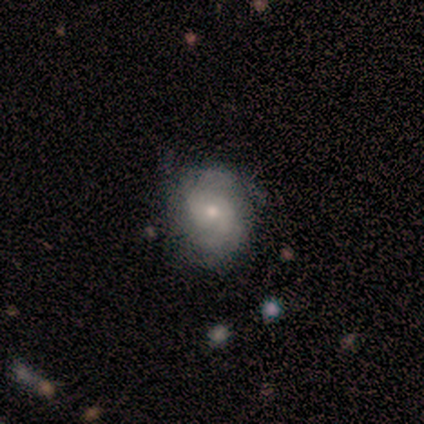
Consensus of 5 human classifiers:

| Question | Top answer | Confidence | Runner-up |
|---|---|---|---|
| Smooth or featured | featured or disk | 80% | star or artifact (20%) |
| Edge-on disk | no | 100% | — |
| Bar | no | 75% | weak (25%) |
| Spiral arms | yes | 75% | no (25%) |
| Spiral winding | tight | 33% | tied: medium (33%), loose (33%) |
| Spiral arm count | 2 | 67% | 3 (33%) |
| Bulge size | moderate | 50% | tied: small (50%) |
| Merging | none | 100% | — |